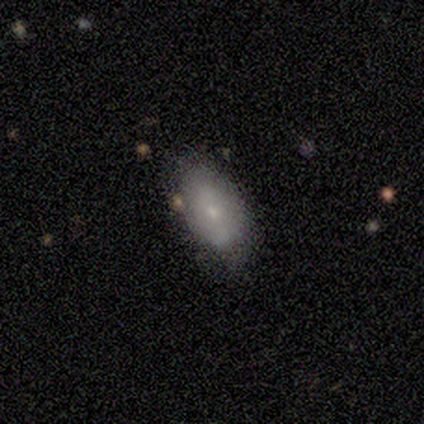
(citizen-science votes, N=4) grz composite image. It shows a smooth galaxy with no disk features (100%) that is in between round and cigar-shaped (100%). Merging: none (75%).